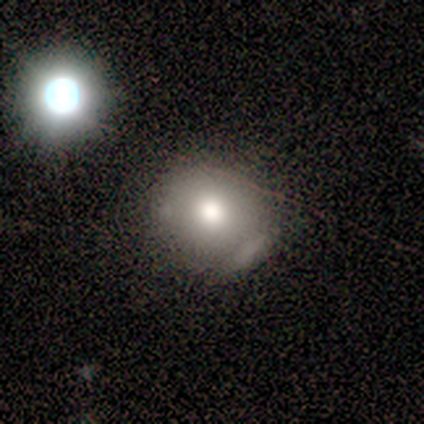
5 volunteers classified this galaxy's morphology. Volunteers were most divided on "how rounded": round: 80%, in between: 20%, cigar-shaped: 0%. More confident: smooth or featured — smooth (100%); merging — minor disturbance (80%).